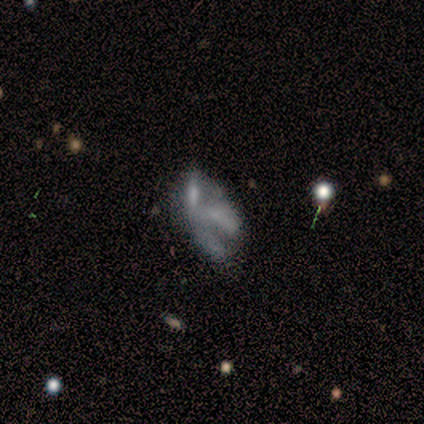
Q: Smooth or featured?
A: featured or disk (50%); runner-up: smooth (30%)
Q: Edge-on disk?
A: no (100%)
Q: Bar?
A: no (100%)
Q: Spiral arms?
A: no (100%)
Q: Bulge size?
A: none (80%); runner-up: small (20%)
Q: Merging?
A: none (50%); runner-up: major disturbance (25%)